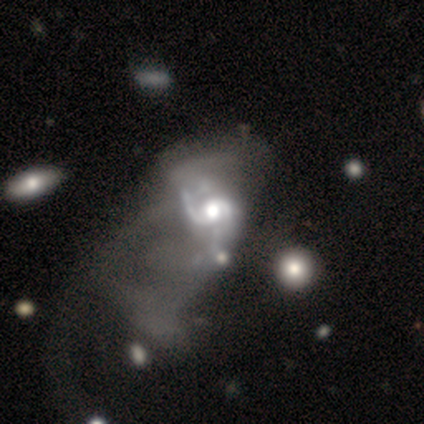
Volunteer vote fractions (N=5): Volunteers were most divided on "spiral winding" (2-way tie): medium: 50%, loose: 50%, tight: 0%. More confident: edge-on disk — no (100%); spiral arms — yes (100%); merging — major disturbance (100%); smooth or featured — featured or disk (80%); bar — no (75%); spiral arm count — 2 (75%); bulge size — moderate (75%).